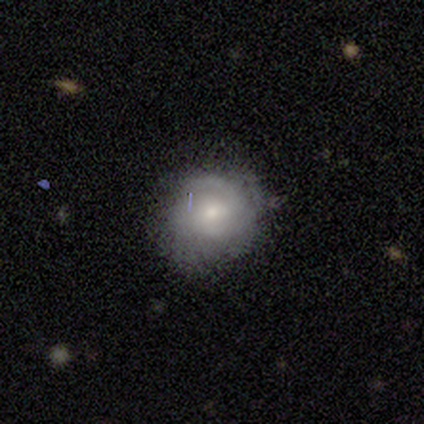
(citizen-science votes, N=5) This appears to be a featured or disk galaxy (60%) with no bar (67%), medium (67%) spiral arms (100%) and a moderate central bulge (67%). Merging: none (80%).